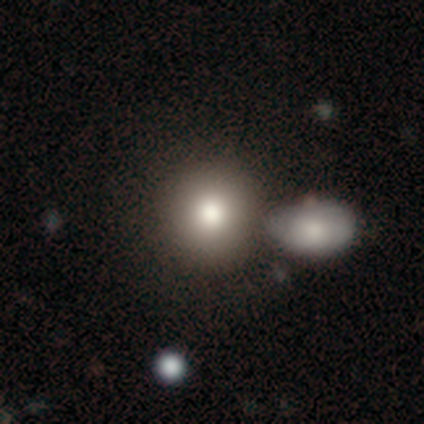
Smooth or featured? smooth (80%)
How rounded? round (100%)
Merging? none (50%, tied with merger)